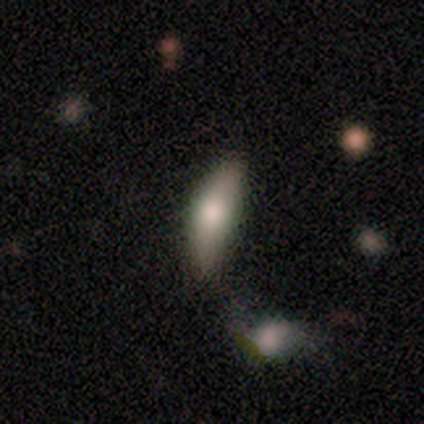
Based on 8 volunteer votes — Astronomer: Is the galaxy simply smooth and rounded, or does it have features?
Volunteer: smooth — 88%.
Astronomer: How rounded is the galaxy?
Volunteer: in between — 71%.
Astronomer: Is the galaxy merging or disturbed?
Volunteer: none — 43% (runner-up: merger, 29%).